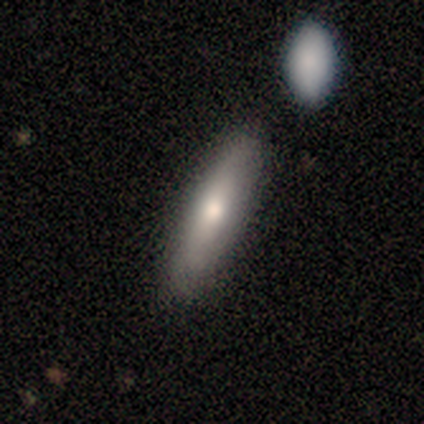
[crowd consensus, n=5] A smooth galaxy with no disk features (60%) that is cigar-shaped (100%).

Vote fractions:
- Smooth or featured? smooth: 60% / featured or disk: 40% / star or artifact: 0%
- How rounded? cigar-shaped: 100% / round: 0% / in between: 0%
- Merging? none: 80% / merger: 20% / minor disturbance: 0% / major disturbance: 0%